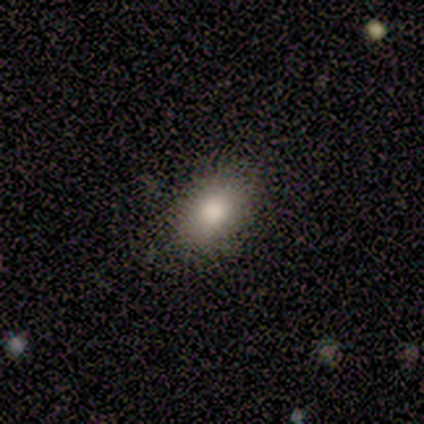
Morphology: type=smooth (82%); roundness=in between (77%); merging=none (88%).